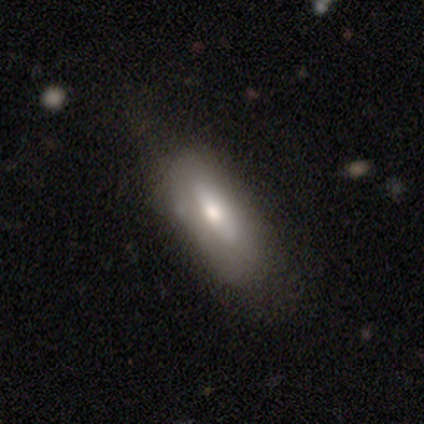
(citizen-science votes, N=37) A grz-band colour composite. It shows a smooth galaxy with no disk features (57%) that is in between round and cigar-shaped (67%). Merging: none (78%).